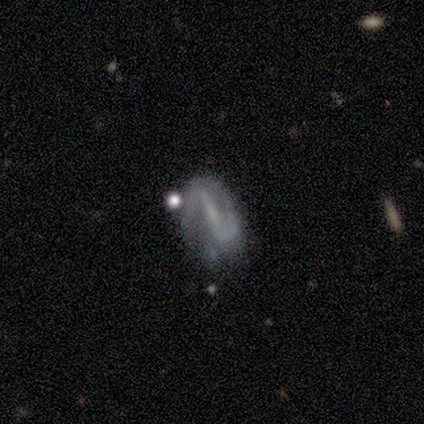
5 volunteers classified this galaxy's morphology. featured or disk 80%, star or artifact 20%, smooth 0%. Down the decision tree: edge-on disk — no (100%); bar — strong (75%); spiral arms — yes (75%); spiral arm count — 2 (100%); spiral winding — tight (33%, tied with medium and loose); bulge size — small (50%); merging — none (100%).